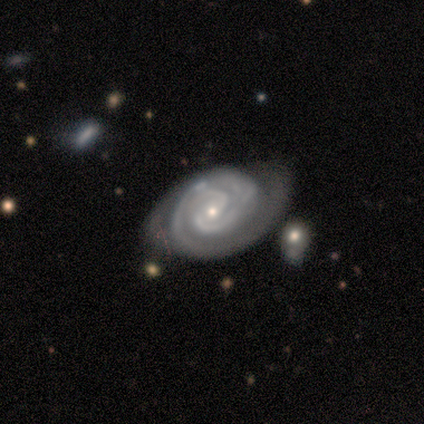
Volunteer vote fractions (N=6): A featured or disk galaxy (83%) with no bar (60%), 2 (60%) tight (80%) spiral arms (100%) and a small central bulge (100%). Merging: none (60%).